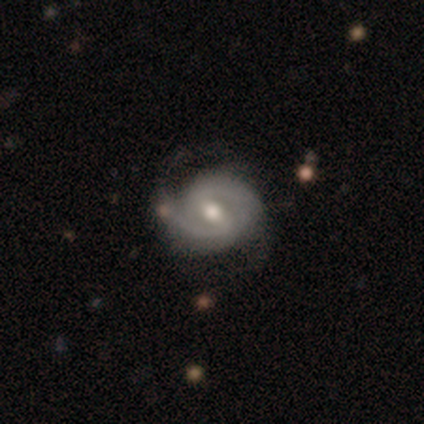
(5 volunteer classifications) A featured or disk galaxy (100%) with a strong bar (60%), 2 (80%) tight (60%) spiral arms (100%) and a moderate central bulge (100%).

Vote fractions:
- Smooth or featured? featured or disk: 100% / smooth: 0% / star or artifact: 0%
- Edge-on disk? no: 100% / yes: 0%
- Bar? strong: 60% / weak: 40% / no: 0%
- Spiral arms? yes: 100% / no: 0%
- Spiral winding? tight: 60% / medium: 20% / loose: 20%
- Spiral arm count? 2: 80% / can't tell: 20% / 1: 0% / 3: 0% / 4: 0% / more than 4: 0%
- Bulge size? moderate: 100% / dominant: 0% / large: 0% / small: 0% / none: 0%
- Merging? none: 80% / minor disturbance: 20% / major disturbance: 0% / merger: 0%